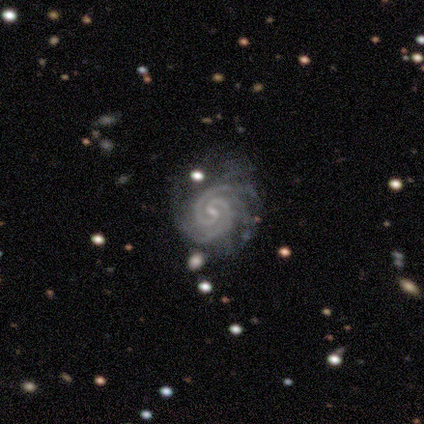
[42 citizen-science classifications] Overall: featured or disk (88%). Edge-on disk: no (97%). Bar: weak (58%; strong 22%). Spiral arms: yes (100%). Spiral arm count: 2 (67%). Spiral winding: tight (89%). Bulge size: small (72%). Merging: none (69%).